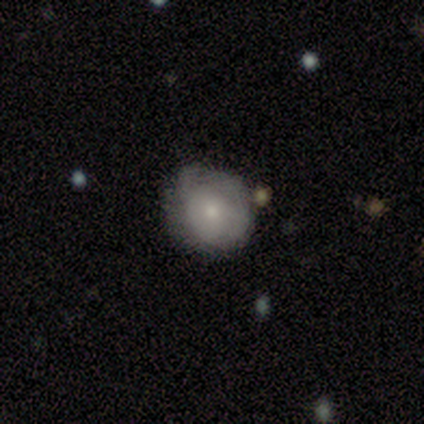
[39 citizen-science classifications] Smooth or featured?
  - smooth: 62% *
  - featured or disk: 28%
  - star or artifact: 10%
How rounded?
  - round: 96% *
  - cigar-shaped: 4%
  - in between: 0%
Merging?
  - none: 51% *
  - minor disturbance: 40%
  - merger: 6%
  - major disturbance: 3%